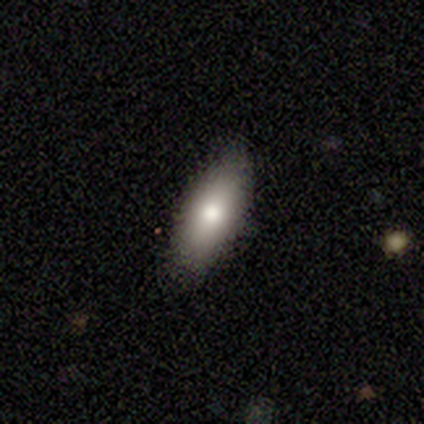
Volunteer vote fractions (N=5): Smooth or featured? 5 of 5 (100%) said smooth. How rounded? 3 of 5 (60%) said in between. Merging? 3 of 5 (60%) said minor disturbance.